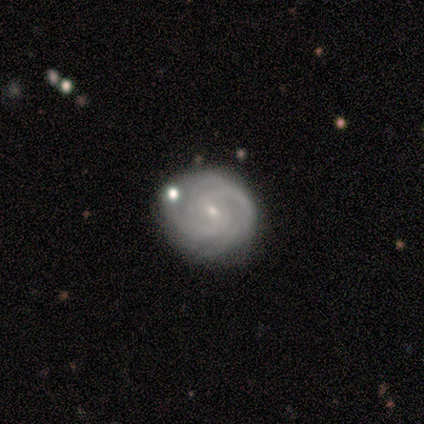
Smooth or featured: featured or disk — 80% (smooth — 20%)
Edge-on disk: no — 100%
Bar: weak — 75% (strong — 25%)
Spiral arms: yes — 100%
Spiral winding: tight — 50% (tied with medium — 50%)
Spiral arm count: can't tell — 50% (3 — 25%)
Bulge size: small — 100%
Merging: none — 60% (minor disturbance — 20%)